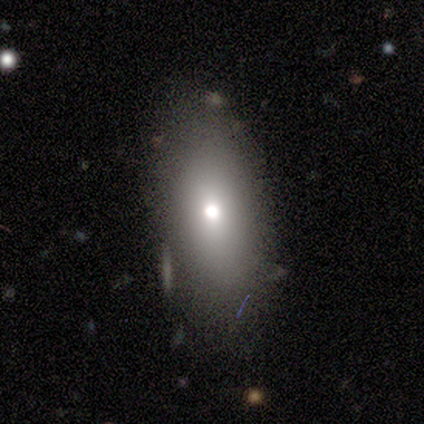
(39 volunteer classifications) Smooth or featured?
  - smooth: 72% *
  - featured or disk: 18%
  - star or artifact: 10%
How rounded?
  - in between: 93% *
  - round: 4%
  - cigar-shaped: 4%
Merging?
  - none: 69% *
  - minor disturbance: 17%
  - major disturbance: 14%
  - merger: 0%